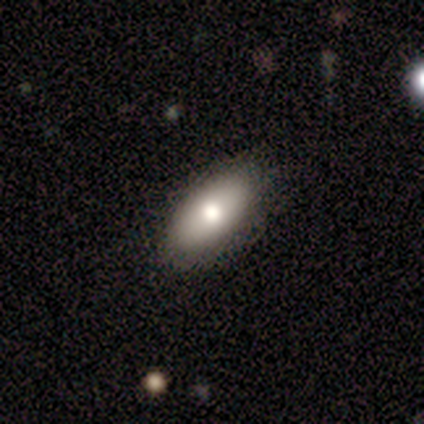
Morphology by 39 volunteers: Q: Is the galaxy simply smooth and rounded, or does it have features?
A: smooth — 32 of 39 (82%).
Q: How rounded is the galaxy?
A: in between — 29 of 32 (91%).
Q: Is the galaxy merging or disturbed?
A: none — 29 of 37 (78%).